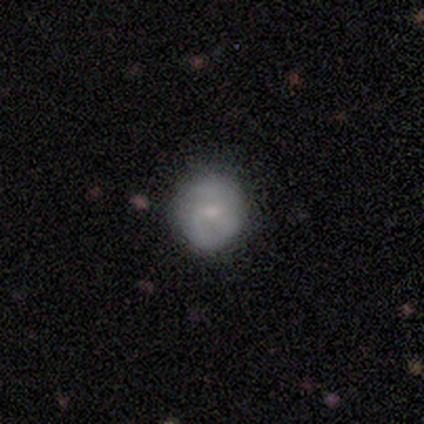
This appears to be a featured or disk galaxy (60%) with no bar (100%), 2 (50%, tied with can't tell) medium (50%, tied with loose) spiral arms (67%) and a small central bulge (67%). Merging: none (60%).